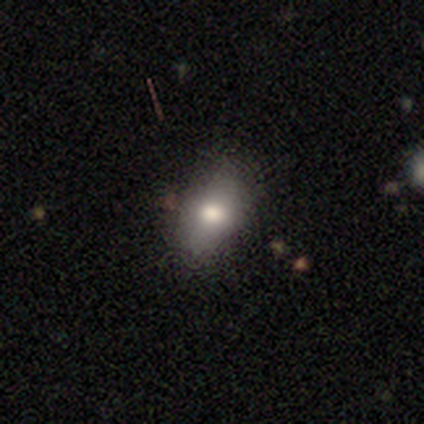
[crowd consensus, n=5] smooth 40% (tied), featured or disk 40% (tied), star or artifact 20%. Down the decision tree: how rounded — round (50%, tied with in between); merging — none (50%, tied with minor disturbance).